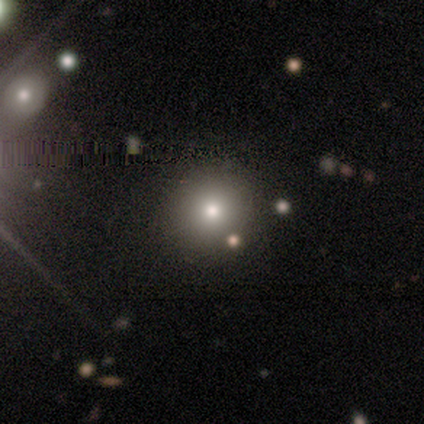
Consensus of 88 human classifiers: Smooth or featured: smooth — 66% (star or artifact — 27%)
How rounded: round — 90% (in between — 9%)
Merging: none — 92% (minor disturbance — 5%)